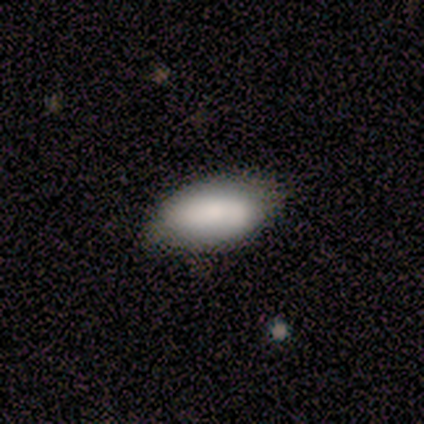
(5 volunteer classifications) A smooth galaxy with no disk features (80%) that is in between round and cigar-shaped (100%). Merging: none (50%, tied with minor disturbance).